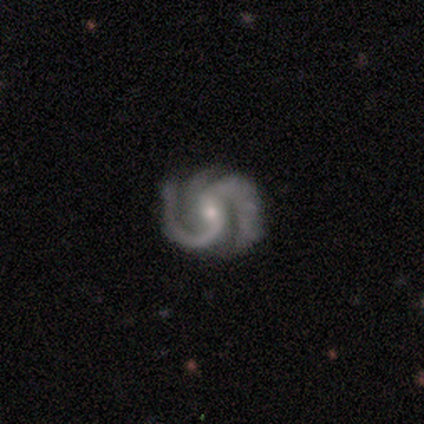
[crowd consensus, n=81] This is clearly a featured or disk galaxy (99%). It is clearly not viewed edge-on (98%). Bar: possibly weak (53%). Spiral arm pattern: clearly yes (100%). Spiral arm count: likely 2 (77%). Spiral winding: likely medium (62%). Central bulge: likely small (65%). Merging: marginally none (30%).